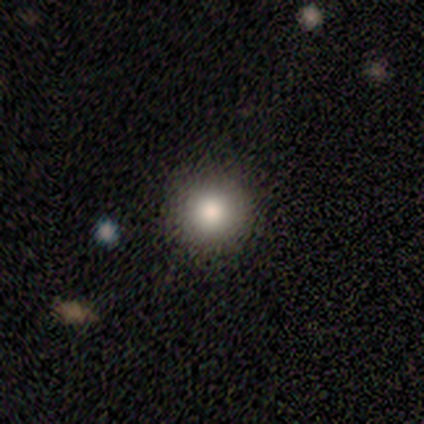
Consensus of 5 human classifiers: smooth-or-featured: smooth: 80% | star or artifact: 20% | featured or disk: 0%
  how-rounded: round: 100% | in between: 0% | cigar-shaped: 0%
  merging: none: 100% | minor disturbance: 0% | major disturbance: 0% | merger: 0%